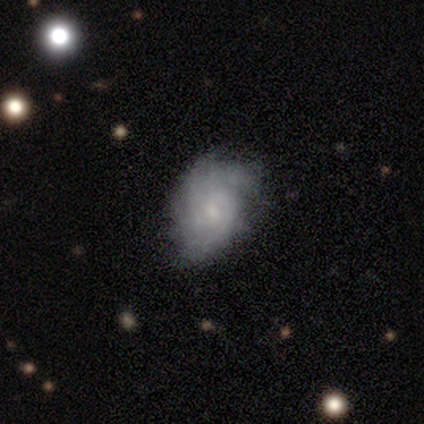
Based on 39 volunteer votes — A featured or disk galaxy (74%) with no bar (55%), tight (58%) spiral arms (83%) and a small central bulge (83%).

Vote fractions:
- Smooth or featured? featured or disk: 74% / smooth: 21% / star or artifact: 5%
- Edge-on disk? no: 100% / yes: 0%
- Bar? no: 55% / weak: 45% / strong: 0%
- Spiral arms? yes: 83% / no: 17%
- Spiral winding? tight: 58% / medium: 25% / loose: 17%
- Spiral arm count? can't tell: 46% / 2: 29% / 1: 8% / 3: 8% / 4: 8% / more than 4: 0%
- Bulge size? small: 83% / moderate: 10% / none: 7% / dominant: 0% / large: 0%
- Merging? none: 35% / minor disturbance: 27% / major disturbance: 3% / merger: 3%